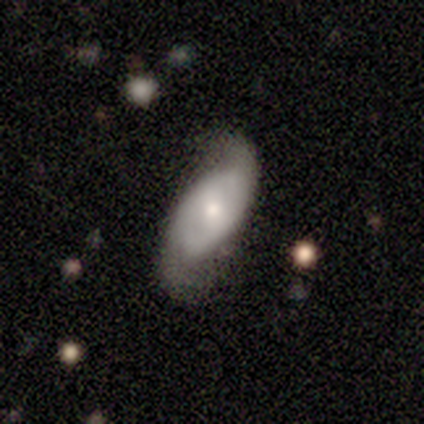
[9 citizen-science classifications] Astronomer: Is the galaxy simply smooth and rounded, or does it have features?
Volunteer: featured or disk — 78%.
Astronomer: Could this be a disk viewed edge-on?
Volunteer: no — 100%.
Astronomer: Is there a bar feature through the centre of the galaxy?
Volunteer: weak — 43%, tied with no at 43%.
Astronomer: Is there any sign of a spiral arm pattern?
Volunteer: yes — 100%.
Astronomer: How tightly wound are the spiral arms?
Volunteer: medium — 71%.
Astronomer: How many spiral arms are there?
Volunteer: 2 — 100%.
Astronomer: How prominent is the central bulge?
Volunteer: small — 57% (runner-up: moderate, 43%).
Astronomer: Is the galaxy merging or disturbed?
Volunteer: none — 56%.